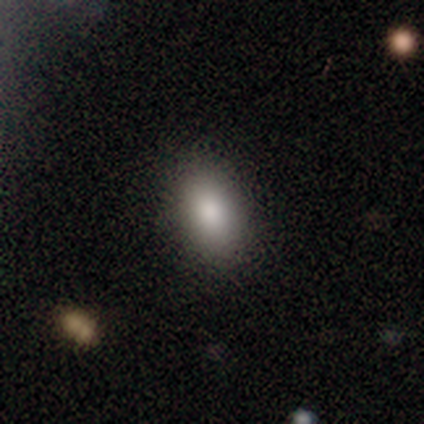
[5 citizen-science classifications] Morphology: type=smooth (60%); roundness=in between (67%); merging=none (75%).